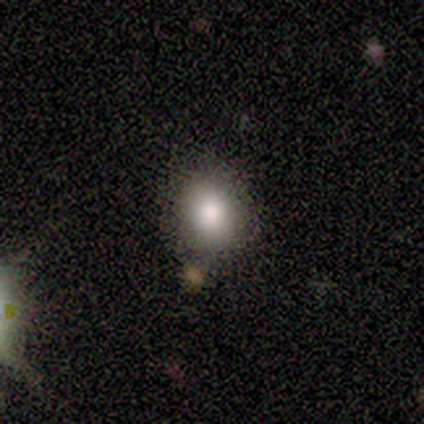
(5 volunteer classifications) This is clearly a smooth galaxy (80%). How rounded: likely in between (75%). Merging: likely none (60%).